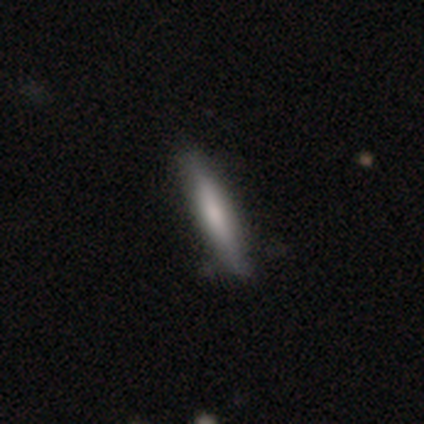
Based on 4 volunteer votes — smooth 75%, featured or disk 25%, star or artifact 0%. Down the decision tree: how rounded — cigar-shaped (100%); merging — none (75%).